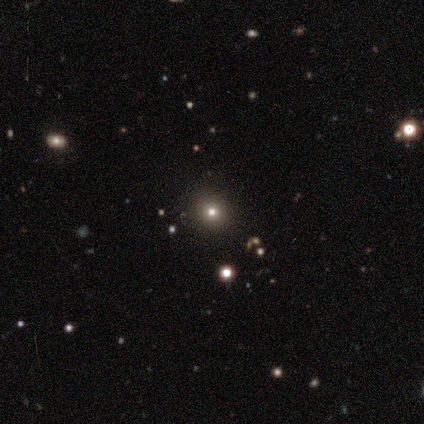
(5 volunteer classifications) smooth-or-featured: smooth: 100% | featured or disk: 0% | star or artifact: 0%
  how-rounded: round: 100% | in between: 0% | cigar-shaped: 0%
  merging: none: 100% | minor disturbance: 0% | major disturbance: 0% | merger: 0%